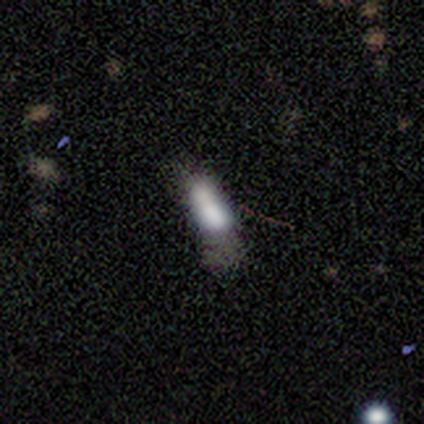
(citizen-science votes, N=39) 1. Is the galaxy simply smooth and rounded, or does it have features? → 67% smooth, 21% featured or disk, 13% star or artifact.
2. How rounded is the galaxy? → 58% in between, 35% cigar-shaped, 8% round.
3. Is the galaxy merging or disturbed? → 38% none, 29% minor disturbance, 21% major disturbance, 12% merger.